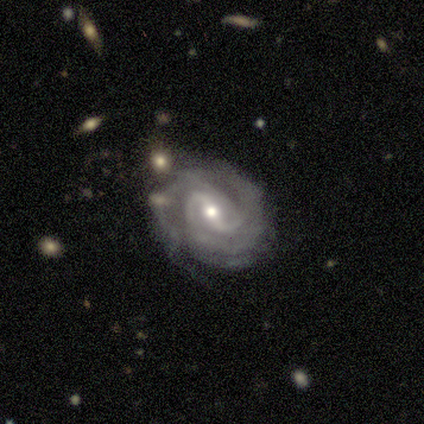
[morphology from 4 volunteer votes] A featured or disk galaxy (50%) with a strong bar (50%, tied with weak), 2 (50%, tied with 4) tight (50%, tied with loose) spiral arms (100%) and a moderate central bulge (50%, tied with small).

Vote fractions:
- Smooth or featured? featured or disk: 50% / smooth: 25% / star or artifact: 25%
- Edge-on disk? no: 100% / yes: 0%
- Bar? strong: 50% (tied) / weak: 50% (tied) / no: 0%
- Spiral arms? yes: 100% / no: 0%
- Spiral winding? tight: 50% (tied) / loose: 50% (tied) / medium: 0%
- Spiral arm count? 2: 50% (tied) / 4: 50% (tied) / 1: 0% / 3: 0% / more than 4: 0% / can't tell: 0%
- Bulge size? moderate: 50% (tied) / small: 50% (tied) / dominant: 0% / large: 0% / none: 0%
- Merging? none: 67% / minor disturbance: 33% / major disturbance: 0% / merger: 0%